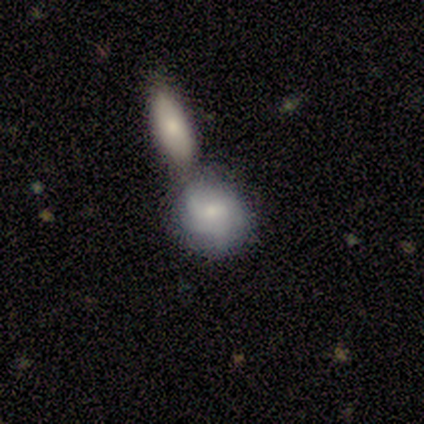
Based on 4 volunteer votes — This is possibly a smooth galaxy (50%, tied with featured or disk). How rounded: clearly round (100%). Merging: possibly minor disturbance (50%, tied with merger).